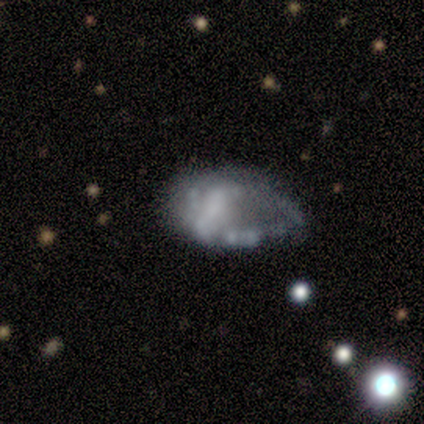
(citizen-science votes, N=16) A featured or disk galaxy (75%) with no bar (92%), no spiral arms (83%) and no central bulge (50%).

Vote fractions:
- Smooth or featured? featured or disk: 75% / smooth: 19% / star or artifact: 6%
- Edge-on disk? no: 100% / yes: 0%
- Bar? no: 92% / weak: 8% / strong: 0%
- Spiral arms? no: 83% / yes: 17%
- Bulge size? none: 50% / moderate: 33% / dominant: 8% / large: 8% / small: 0%
- Merging? minor disturbance: 40% / merger: 27% / major disturbance: 20% / none: 13%